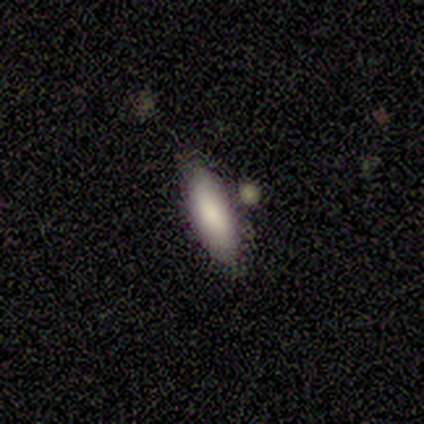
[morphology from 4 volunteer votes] smooth-or-featured: smooth: 75% | featured or disk: 25% | star or artifact: 0%
  how-rounded: in between: 100% | round: 0% | cigar-shaped: 0%
  merging: none: 75% | minor disturbance: 25% | major disturbance: 0% | merger: 0%